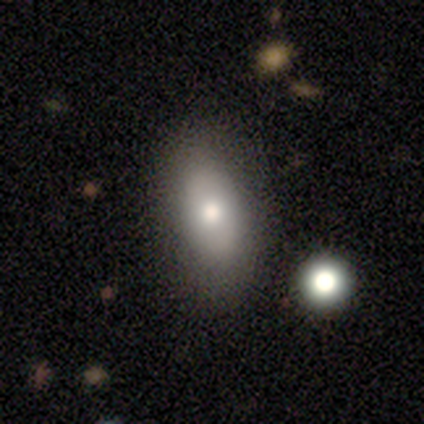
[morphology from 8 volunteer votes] A smooth galaxy with no disk features (62%) that is in between round and cigar-shaped (100%).

Vote fractions:
- Smooth or featured? smooth: 62% / featured or disk: 25% / star or artifact: 12%
- How rounded? in between: 100% / round: 0% / cigar-shaped: 0%
- Merging? none: 57% / minor disturbance: 29% / major disturbance: 14% / merger: 0%